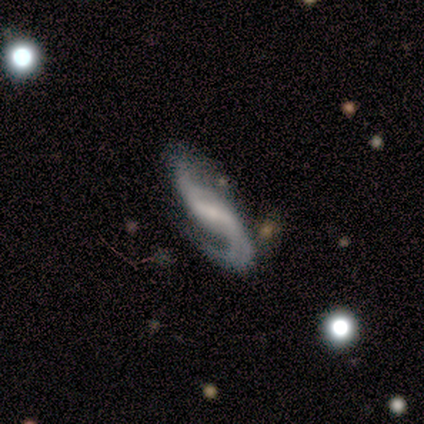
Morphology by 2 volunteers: featured or disk 100%, smooth 0%, star or artifact 0%. Down the decision tree: edge-on disk — no (100%); bar — weak (100%); spiral arms — yes (100%); spiral arm count — 2 (50%, tied with can't tell); spiral winding — medium (50%, tied with loose); bulge size — small (100%); merging — none (50%, tied with minor disturbance).